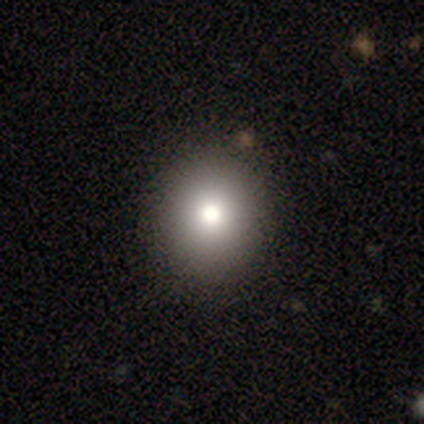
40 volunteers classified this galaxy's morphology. Overall: smooth (78%). How rounded: round (74%). Merging: none (47%; minor disturbance 8%).